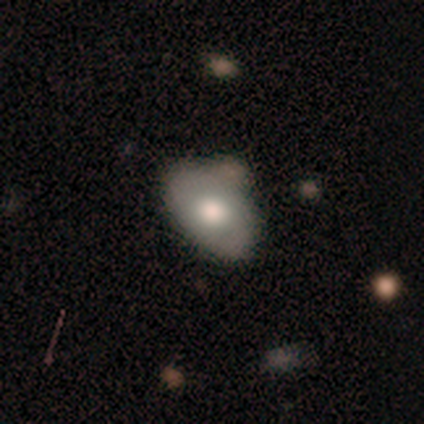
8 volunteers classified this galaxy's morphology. type=smooth (50%); roundness=in between (100%); merging=none (57%).